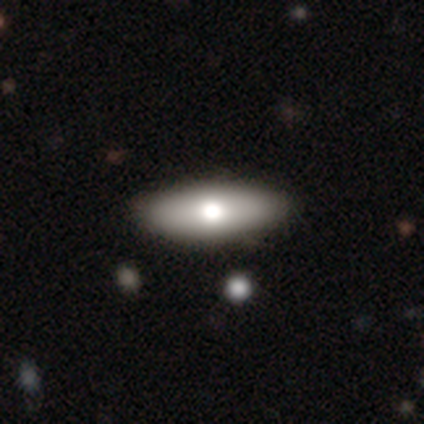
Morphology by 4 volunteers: A smooth galaxy with no disk features (75%) that is in between round and cigar-shaped (67%). Merging: none (75%).